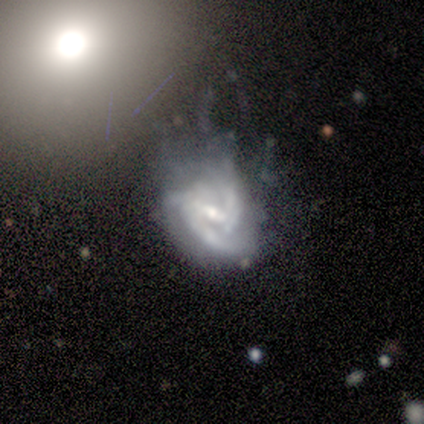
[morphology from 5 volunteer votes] This appears to be a featured or disk galaxy (80%) with a strong bar (75%), 3 (67%) medium (67%) spiral arms (75%) and a small central bulge (75%). Merging: major disturbance (50%).